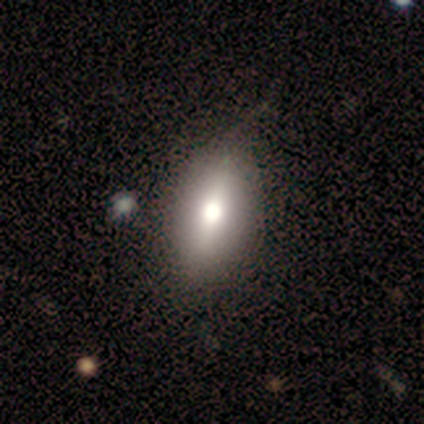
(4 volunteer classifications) A smooth galaxy with no disk features (75%) that is in between round and cigar-shaped (100%).

Vote fractions:
- Smooth or featured? smooth: 75% / featured or disk: 25% / star or artifact: 0%
- How rounded? in between: 100% / round: 0% / cigar-shaped: 0%
- Merging? none: 100% / minor disturbance: 0% / major disturbance: 0% / merger: 0%